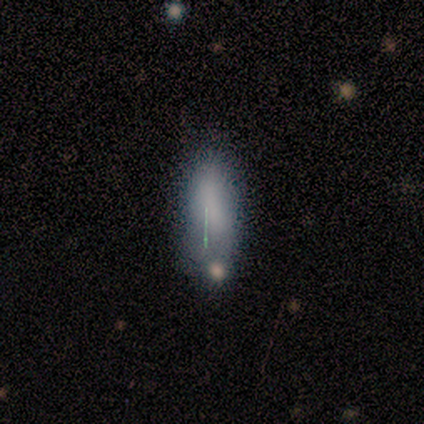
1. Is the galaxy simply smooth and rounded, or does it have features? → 100% smooth, 0% featured or disk, 0% star or artifact.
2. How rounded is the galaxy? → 50% in between (tied), 50% cigar-shaped (tied), 0% round.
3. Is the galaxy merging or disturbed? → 50% none (tied), 50% minor disturbance (tied), 0% major disturbance, 0% merger.